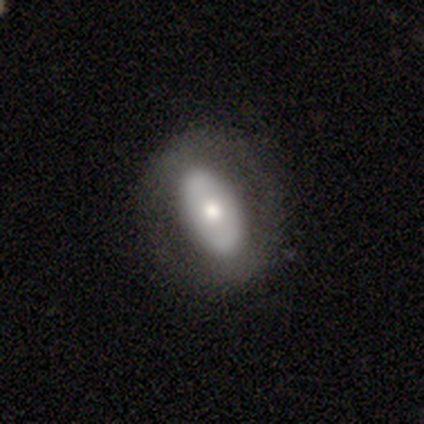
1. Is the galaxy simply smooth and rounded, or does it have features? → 70% smooth, 30% featured or disk, 0% star or artifact.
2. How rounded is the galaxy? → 86% in between, 14% cigar-shaped, 0% round.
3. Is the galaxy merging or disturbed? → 70% none, 20% minor disturbance, 10% major disturbance, 0% merger.